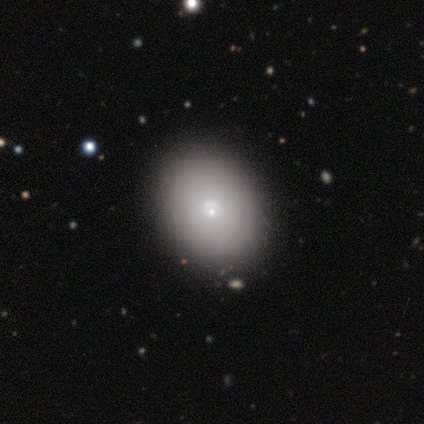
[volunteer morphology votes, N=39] Smooth or featured? 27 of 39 (69%) said smooth. How rounded? 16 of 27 (59%) said in between. Merging? 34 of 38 (89%) said none.